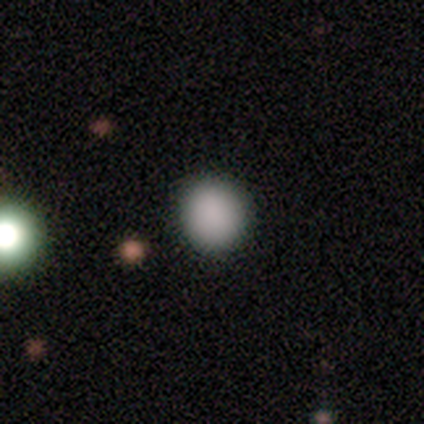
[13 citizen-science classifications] Q: Smooth or featured?
A: smooth (100%)
Q: How rounded?
A: round (100%)
Q: Merging?
A: none (77%); runner-up: minor disturbance (15%)